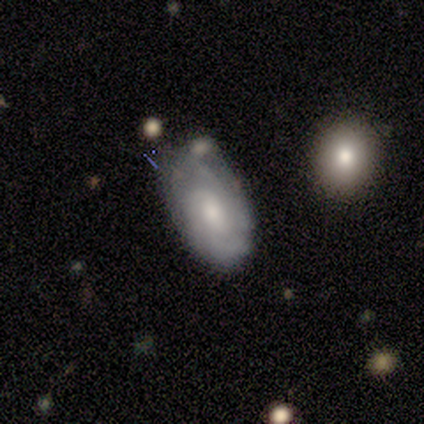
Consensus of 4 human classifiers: Smooth or featured? 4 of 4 (100%) said featured or disk. Edge-on disk? 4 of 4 (100%) said no. Bar? 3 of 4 (75%) said no. Spiral arms? 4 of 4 (100%) said yes. Spiral winding? 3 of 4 (75%) said tight. Spiral arm count? 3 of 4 (75%) said can't tell. Bulge size? 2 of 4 (50%, tied with small) said moderate. Merging? 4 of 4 (100%) said none.